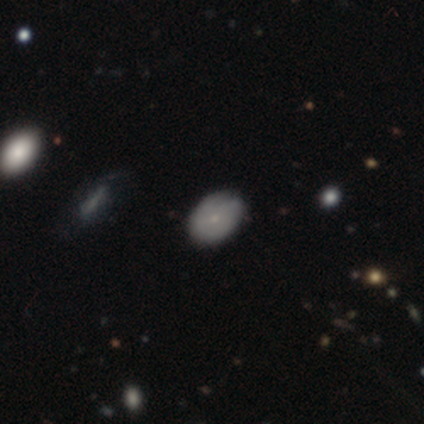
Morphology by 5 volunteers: smooth 80%, featured or disk 20%, star or artifact 0%. Down the decision tree: how rounded — in between (75%); merging — none (80%).